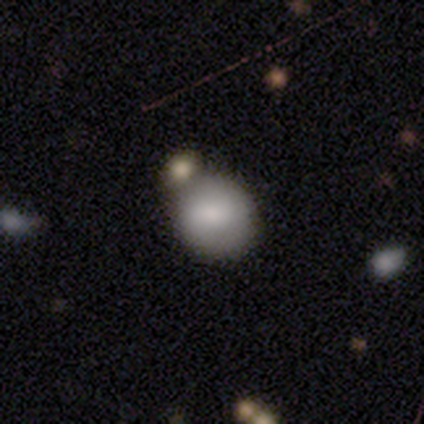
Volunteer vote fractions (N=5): Smooth or featured? 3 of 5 (60%) said smooth. How rounded? 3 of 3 (100%) said round. Merging? 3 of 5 (60%) said none.